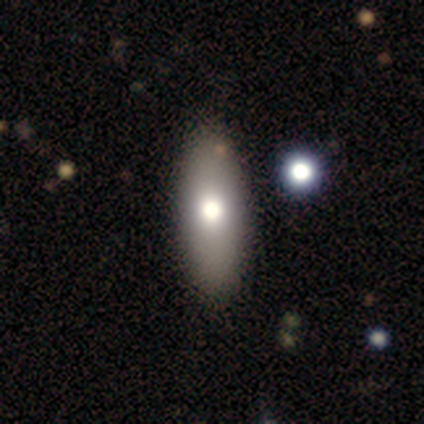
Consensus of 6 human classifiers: smooth-or-featured: smooth: 67% | featured or disk: 33% | star or artifact: 0%
  how-rounded: in between: 100% | round: 0% | cigar-shaped: 0%
  merging: none: 100% | minor disturbance: 0% | major disturbance: 0% | merger: 0%